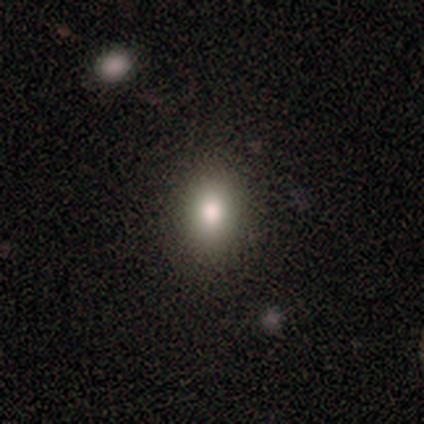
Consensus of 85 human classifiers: Q: Smooth or featured?
A: smooth (71%); runner-up: star or artifact (19%)
Q: How rounded?
A: in between (68%); runner-up: round (32%)
Q: Merging?
A: none (87%); runner-up: minor disturbance (12%)